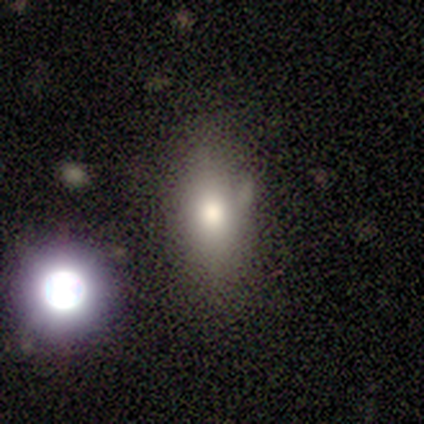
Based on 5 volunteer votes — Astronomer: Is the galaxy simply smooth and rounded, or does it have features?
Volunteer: smooth — 60% (runner-up: featured or disk, 40%).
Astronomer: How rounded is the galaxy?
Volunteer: cigar-shaped — 67%.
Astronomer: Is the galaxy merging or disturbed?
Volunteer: none — 60% (runner-up: minor disturbance, 40%).